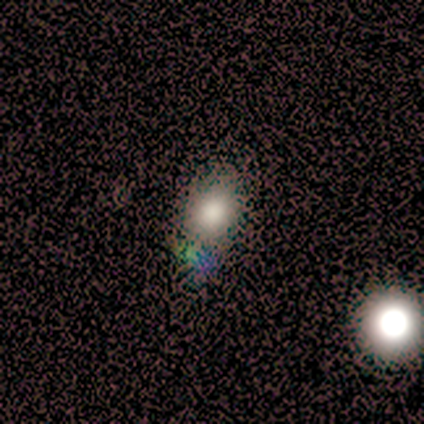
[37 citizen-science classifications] Smooth or featured: smooth — 62% (star or artifact — 30%)
How rounded: round — 61% (in between — 39%)
Merging: none — 50% (minor disturbance — 8%)